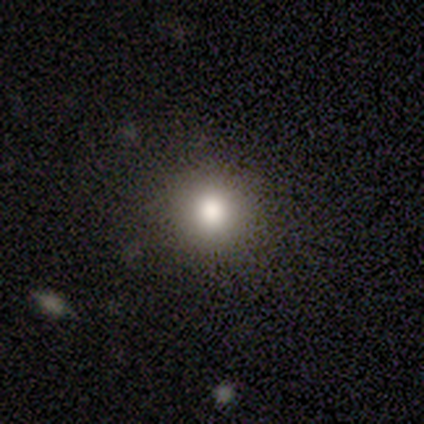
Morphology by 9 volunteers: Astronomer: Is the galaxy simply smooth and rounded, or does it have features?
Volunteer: smooth — 78%.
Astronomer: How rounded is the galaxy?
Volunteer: round — 71%.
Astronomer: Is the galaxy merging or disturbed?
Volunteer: none — 75%.